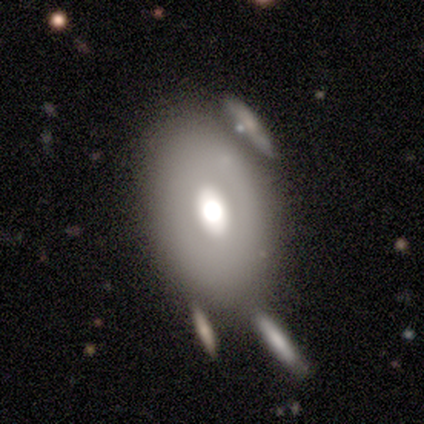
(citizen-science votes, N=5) smooth 60%, featured or disk 20%, star or artifact 20%. Down the decision tree: how rounded — in between (100%); merging — merger (50%).